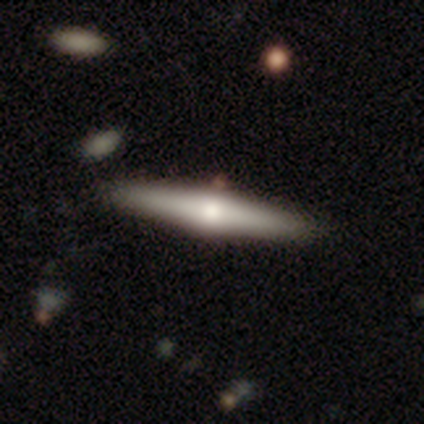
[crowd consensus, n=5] smooth_or_featured: smooth (p=0.60) [alt: featured or disk p=0.40]
how_rounded: cigar-shaped (p=1.00)
merging: none (p=0.80) [alt: major disturbance p=0.20]